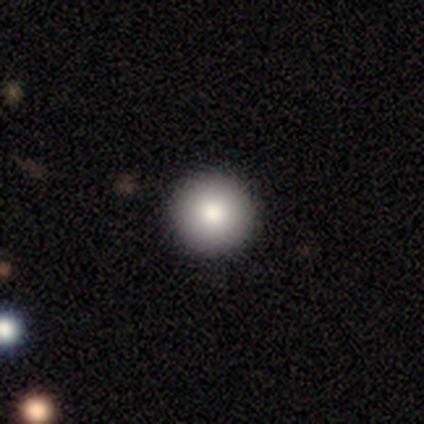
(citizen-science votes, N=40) smooth_or_featured: smooth (p=0.78) [alt: star or artifact p=0.12]
how_rounded: round (p=1.00)
merging: none (p=0.89) [alt: minor disturbance p=0.11]